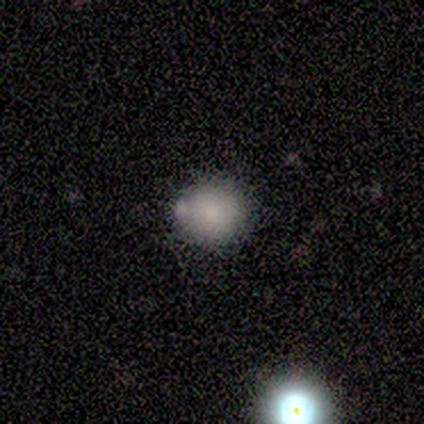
Morphology: type=smooth (89%); roundness=round (100%); merging=none (50%).